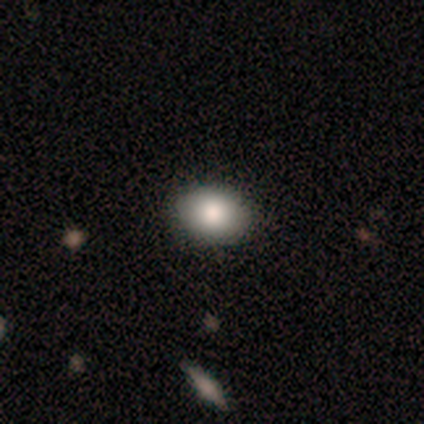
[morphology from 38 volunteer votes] This is clearly a smooth galaxy (89%). How rounded: likely in between (65%). Merging: clearly none (92%).